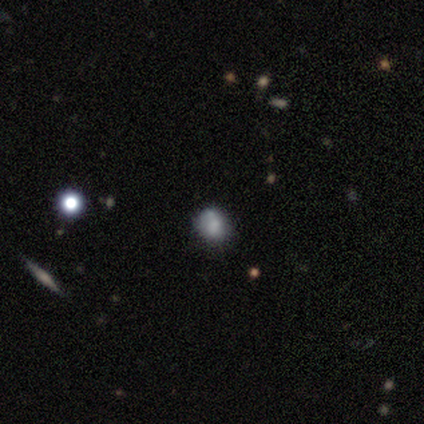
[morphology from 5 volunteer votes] This appears to be a smooth galaxy with no disk features (40%, tied with featured or disk) that is in between round and cigar-shaped (50%, tied with cigar-shaped). Merging: none (75%).